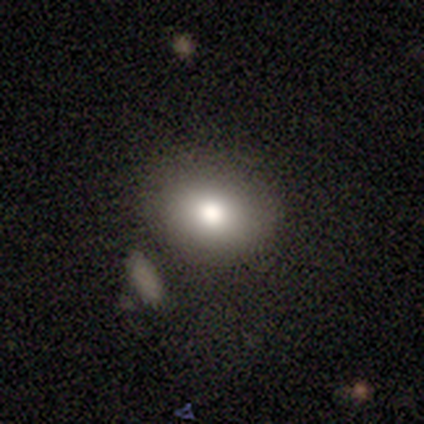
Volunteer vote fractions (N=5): Smooth or featured? 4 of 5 (80%) said smooth. How rounded? 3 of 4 (75%) said in between. Merging? 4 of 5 (80%) said none.